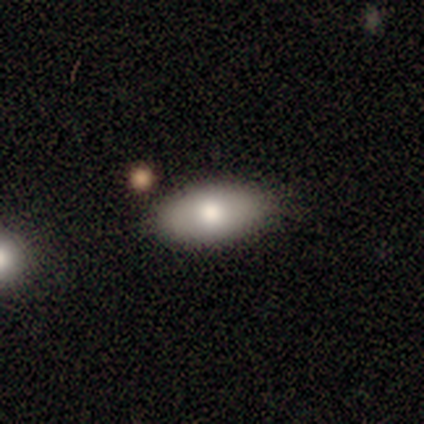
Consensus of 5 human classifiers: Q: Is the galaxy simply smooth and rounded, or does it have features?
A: featured or disk — 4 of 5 (80%).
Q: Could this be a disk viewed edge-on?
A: no — 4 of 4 (100%).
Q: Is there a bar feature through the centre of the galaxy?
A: no — 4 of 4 (100%).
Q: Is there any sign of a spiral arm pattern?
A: no — 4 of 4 (100%).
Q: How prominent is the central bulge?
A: moderate — 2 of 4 (50%).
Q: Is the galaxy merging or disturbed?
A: none — 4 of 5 (80%).